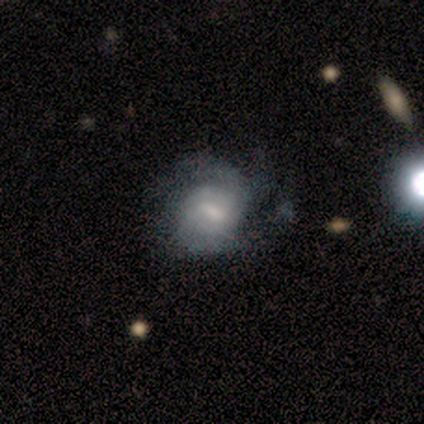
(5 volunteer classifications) This appears to be a featured or disk galaxy (80%) with no bar (50%), 2 (33%, tied with 4 and can't tell) medium (67%) spiral arms (75%) and a small central bulge (50%). Merging: none (75%).